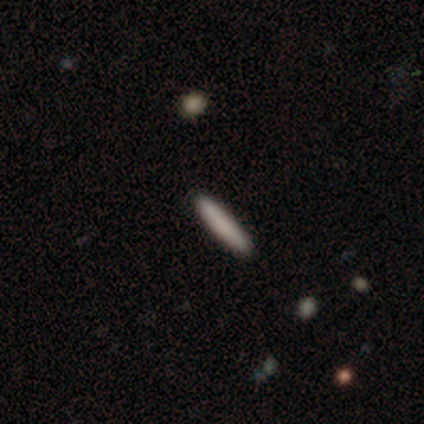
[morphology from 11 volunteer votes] Volunteers were most divided on "how rounded": cigar-shaped: 80%, in between: 20%, round: 0%. More confident: merging — none (100%); smooth or featured — smooth (91%).